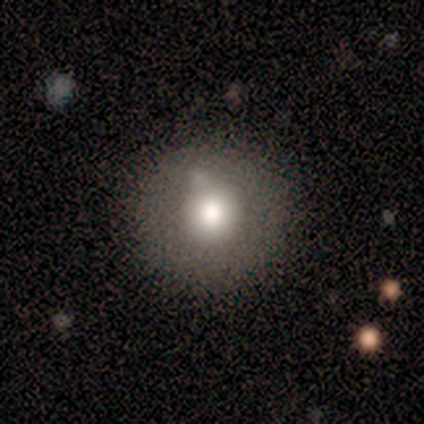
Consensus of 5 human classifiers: This appears to be a smooth galaxy with no disk features (80%) that is round (100%). Merging: none (100%).